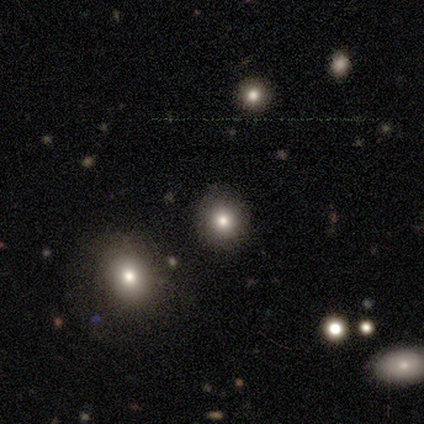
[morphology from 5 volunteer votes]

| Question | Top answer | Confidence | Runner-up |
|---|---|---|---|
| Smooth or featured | smooth | 80% | star or artifact (20%) |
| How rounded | round | 100% | — |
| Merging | none | 100% | — |